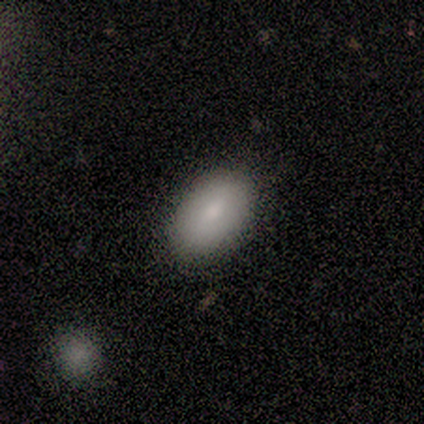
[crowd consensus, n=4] Smooth or featured? smooth (100%)
How rounded? in between (100%)
Merging? none (100%)